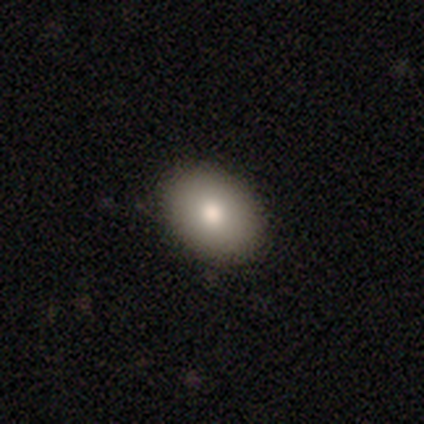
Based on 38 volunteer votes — A smooth galaxy with no disk features (79%) that is in between round and cigar-shaped (80%).

Vote fractions:
- Smooth or featured? smooth: 79% / featured or disk: 16% / star or artifact: 5%
- How rounded? in between: 80% / round: 20% / cigar-shaped: 0%
- Merging? none: 89% / minor disturbance: 8% / major disturbance: 3% / merger: 0%